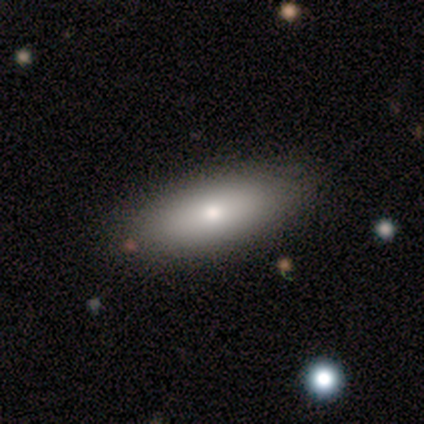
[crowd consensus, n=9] smooth 67%, featured or disk 22%, star or artifact 11%. Down the decision tree: how rounded — in between (83%); merging — none (100%).